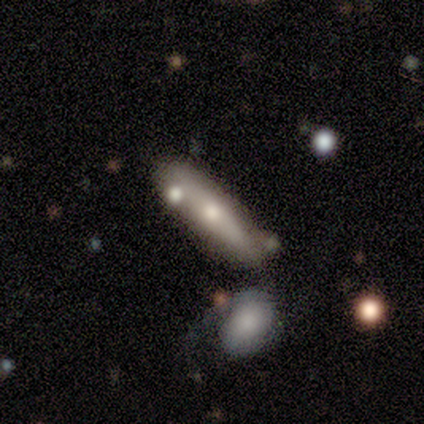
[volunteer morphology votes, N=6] A smooth galaxy with no disk features (50%, tied with featured or disk) that is in between round and cigar-shaped (67%).

Vote fractions:
- Smooth or featured? smooth: 50% (tied) / featured or disk: 50% (tied) / star or artifact: 0%
- How rounded? in between: 67% / cigar-shaped: 33% / round: 0%
- Merging? none: 33% (tied) / merger: 33% (tied) / minor disturbance: 17% / major disturbance: 17%